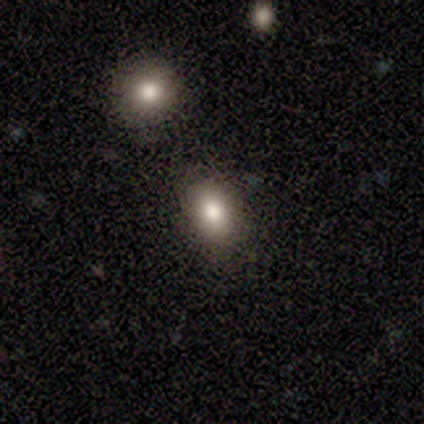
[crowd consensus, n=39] This appears to be a smooth galaxy with no disk features (82%) that is in between round and cigar-shaped (81%). Merging: none (73%).